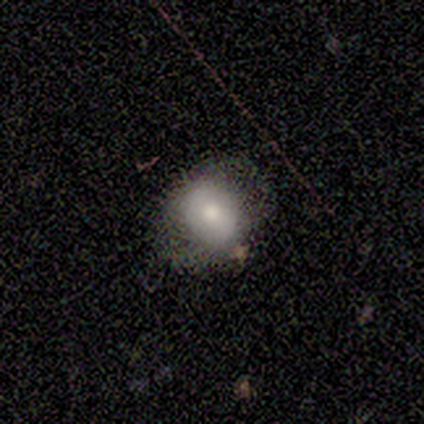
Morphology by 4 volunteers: Smooth or featured? smooth (50%, tied with featured or disk)
How rounded? round (50%, tied with in between)
Merging? none (50%, tied with major disturbance)